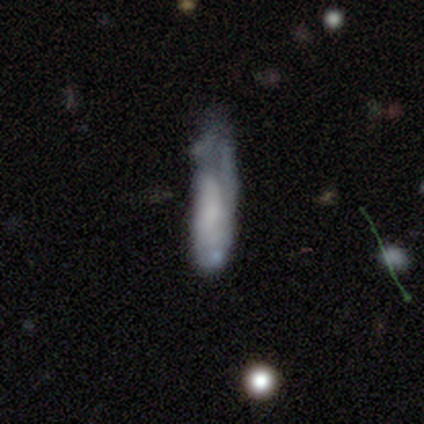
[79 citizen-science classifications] Volunteers were most divided on "merging": minor disturbance: 31%, major disturbance: 17%, none: 15%, merger: 7%. More confident: edge-on disk — no (84%); bar — no (78%); bulge size — none (67%); spiral arms — no (58%); smooth or featured — featured or disk (54%).